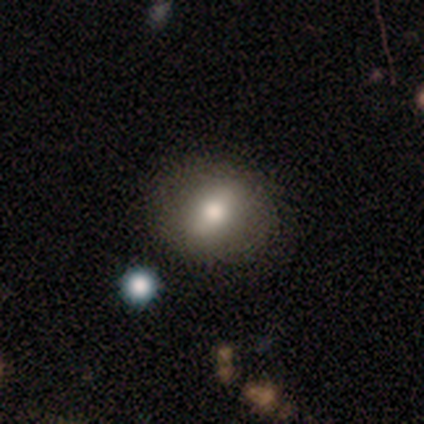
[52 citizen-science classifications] Morphology: type=smooth (67%); roundness=round (54%); merging=none (93%).